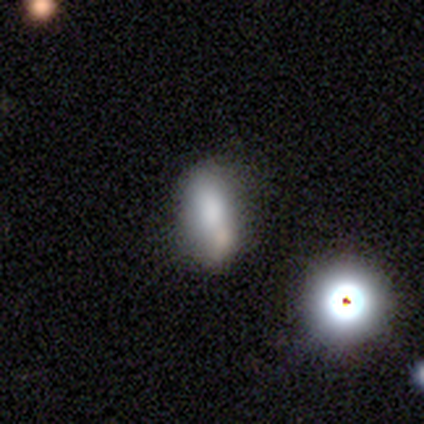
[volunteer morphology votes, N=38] This is likely a smooth galaxy (68%). How rounded: likely in between (69%). Merging: marginally none (38%).